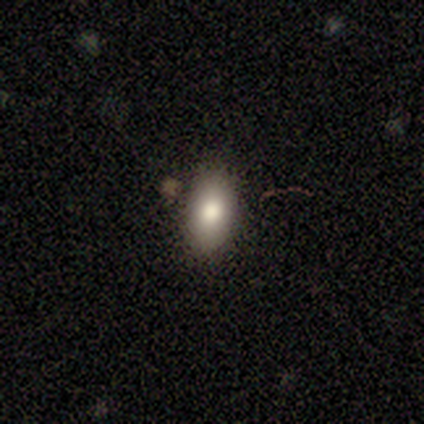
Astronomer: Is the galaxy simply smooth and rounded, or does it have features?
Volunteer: smooth — 75%.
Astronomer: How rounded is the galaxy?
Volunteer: in between — 100%.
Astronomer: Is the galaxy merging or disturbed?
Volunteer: none — 50%, tied with minor disturbance at 50%.